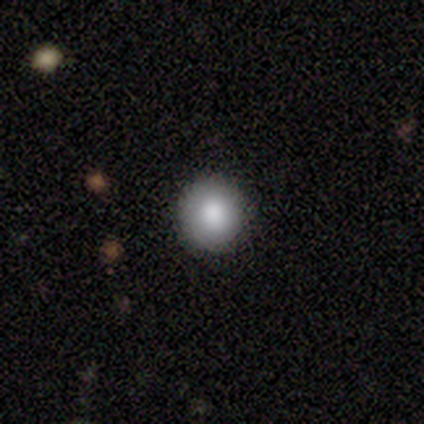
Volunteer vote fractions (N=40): This is clearly a smooth galaxy (85%). How rounded: clearly round (97%). Merging: clearly none (100%).